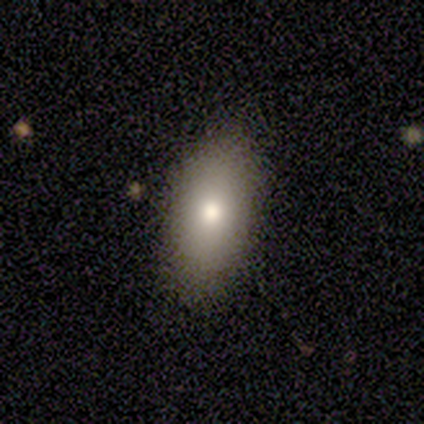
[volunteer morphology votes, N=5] This appears to be a smooth galaxy with no disk features (80%) that is in between round and cigar-shaped (100%). Merging: none (100%).